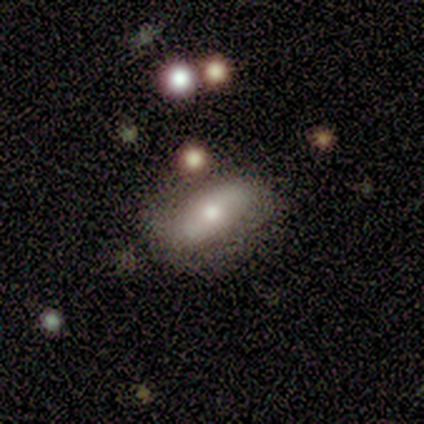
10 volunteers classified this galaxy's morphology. Q: Smooth or featured?
A: featured or disk (60%); runner-up: smooth (40%)
Q: Edge-on disk?
A: no (67%); runner-up: yes (33%)
Q: Bar?
A: strong (50%); tied with: no (50%)
Q: Spiral arms?
A: yes (50%); tied with: no (50%)
Q: Spiral winding?
A: loose (100%)
Q: Spiral arm count?
A: 2 (50%); tied with: can't tell (50%)
Q: Bulge size?
A: moderate (50%); runner-up: large (25%)
Q: Merging?
A: none (80%); runner-up: minor disturbance (20%)